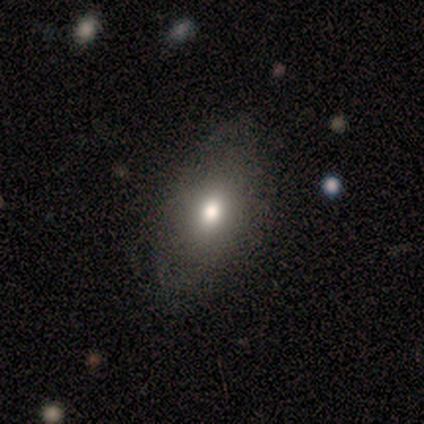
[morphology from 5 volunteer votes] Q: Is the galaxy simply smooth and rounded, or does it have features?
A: smooth — 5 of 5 (100%).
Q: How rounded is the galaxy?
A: in between — 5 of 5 (100%).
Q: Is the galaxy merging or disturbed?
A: none — 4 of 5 (80%).